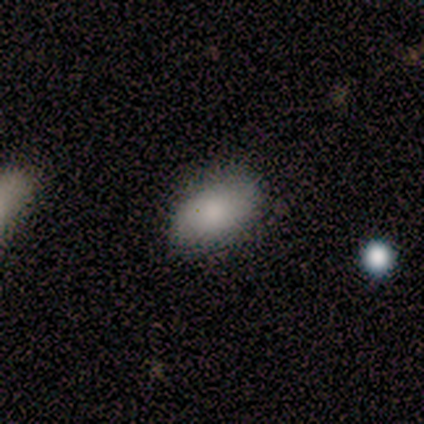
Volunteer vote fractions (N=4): Smooth or featured? smooth (100%)
How rounded? in between (100%)
Merging? none (50%, tied with minor disturbance)